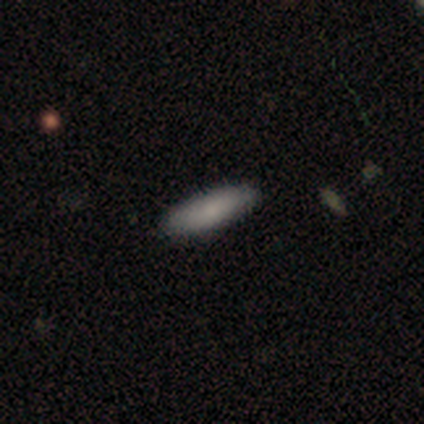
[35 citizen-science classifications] Morphology: type=smooth (77%); roundness=in between (52%); merging=none (91%).